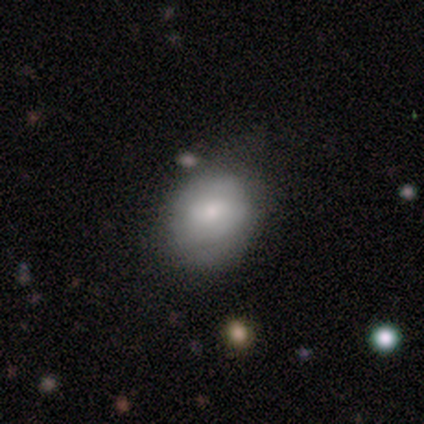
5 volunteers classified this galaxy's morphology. type=smooth (60%); roundness=round (100%); merging=none (80%).